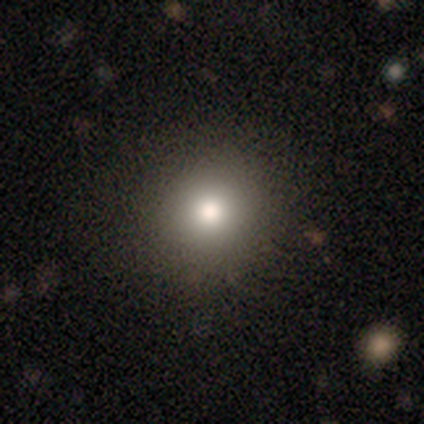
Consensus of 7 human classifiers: This appears to be a smooth galaxy with no disk features (71%) that is round (80%). Merging: none (67%).